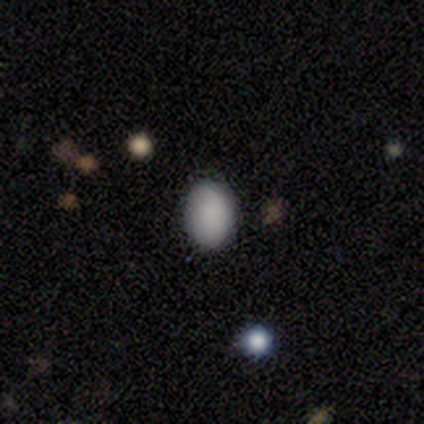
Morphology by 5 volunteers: Q: Smooth or featured?
A: smooth (100%)
Q: How rounded?
A: in between (100%)
Q: Merging?
A: none (100%)